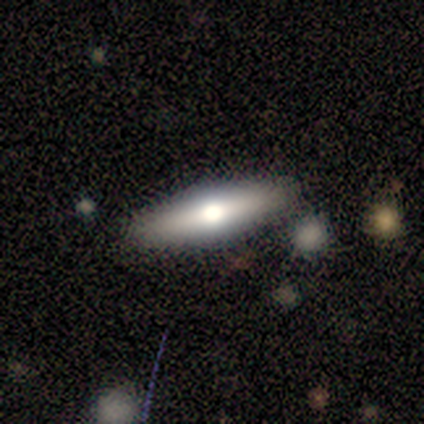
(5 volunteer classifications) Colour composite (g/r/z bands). It shows a featured or disk galaxy (60%) viewed edge-on (67%) with a rounded central bulge (100%). Merging: none (100%).